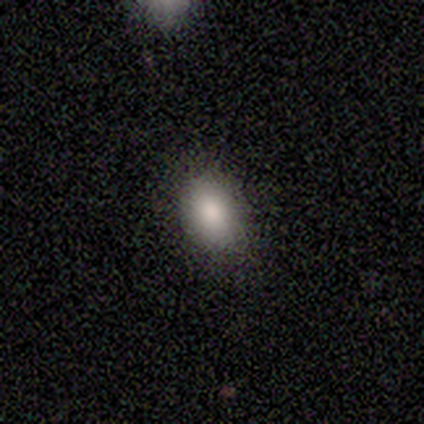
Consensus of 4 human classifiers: This is clearly a smooth galaxy (100%). How rounded: likely in between (75%). Merging: clearly none (100%).